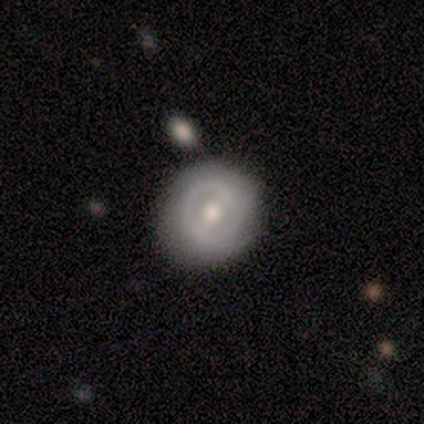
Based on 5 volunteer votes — smooth-or-featured: featured or disk: 80% | smooth: 20% | star or artifact: 0%
  disk-edge-on: no: 100% | yes: 0%
    bar: weak: 50% | strong: 25% | no: 25%
    has-spiral-arms: no: 75% | yes: 25%
    bulge-size: moderate: 75% | small: 25% | dominant: 0% | large: 0% | none: 0%
  merging: none: 100% | minor disturbance: 0% | major disturbance: 0% | merger: 0%